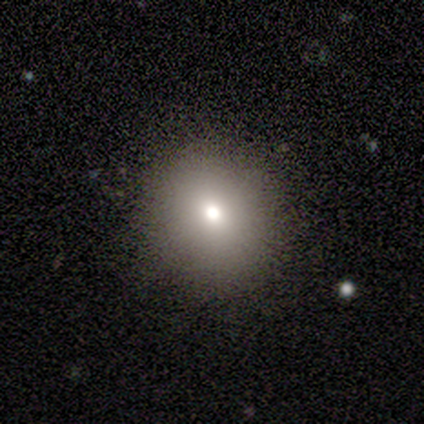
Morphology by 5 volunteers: Smooth or featured: smooth — 80% (star or artifact — 20%)
How rounded: round — 75% (in between — 25%)
Merging: none — 75% (minor disturbance — 25%)